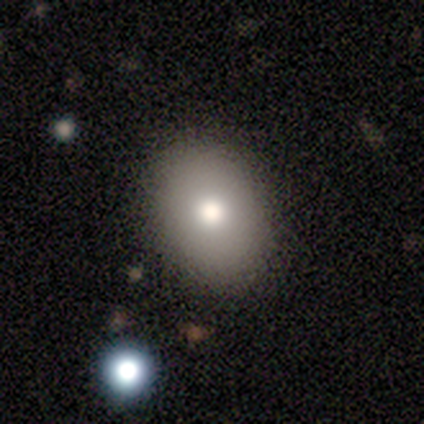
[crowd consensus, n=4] Volunteers were most divided on "how rounded" (2-way tie): round: 50%, in between: 50%, cigar-shaped: 0%. More confident: smooth or featured — smooth (100%); merging — none (100%).